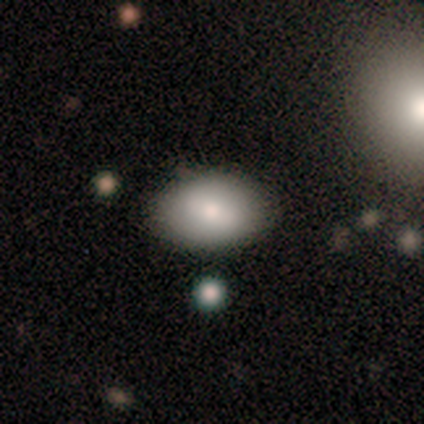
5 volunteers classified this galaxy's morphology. Smooth or featured? featured or disk (60%)
Edge-on disk? no (100%)
Bar? strong (33%, tied with weak and no)
Spiral arms? no (100%)
Bulge size? moderate (67%)
Merging? none (100%)